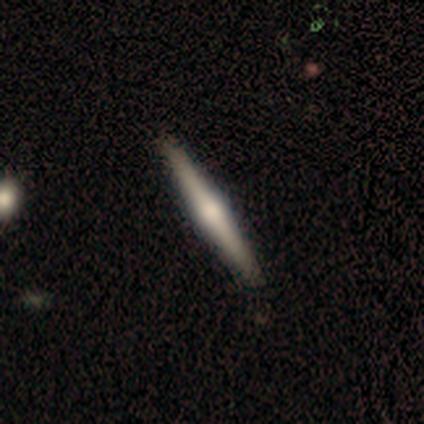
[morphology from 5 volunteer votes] type=smooth (60%); roundness=cigar-shaped (100%); merging=none (80%).